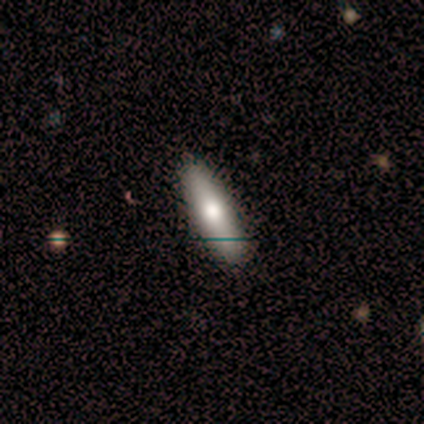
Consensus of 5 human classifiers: Morphology: type=smooth (80%); roundness=in between (50%, tied with cigar-shaped); merging=none (80%).